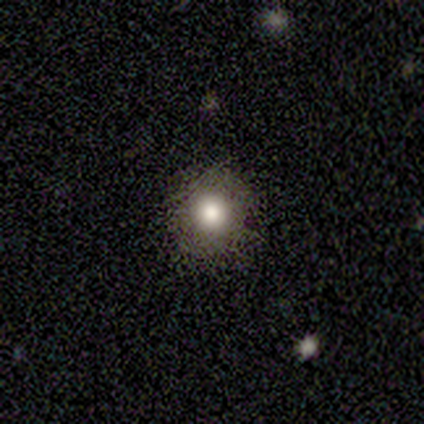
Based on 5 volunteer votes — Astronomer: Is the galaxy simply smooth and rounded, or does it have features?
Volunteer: smooth — 100%.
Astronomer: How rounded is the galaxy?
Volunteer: round — 100%.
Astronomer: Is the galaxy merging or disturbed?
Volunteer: none — 100%.